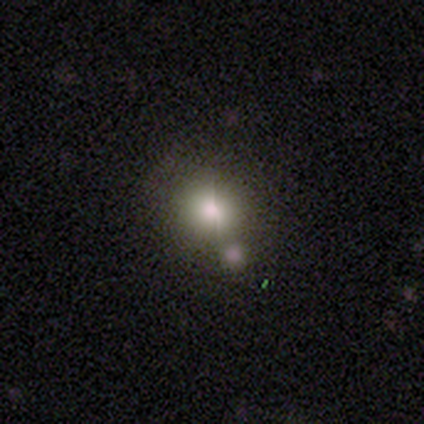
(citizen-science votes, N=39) Q: Smooth or featured?
A: smooth (59%); runner-up: featured or disk (23%)
Q: How rounded?
A: round (91%); runner-up: in between (9%)
Q: Merging?
A: none (66%); runner-up: minor disturbance (19%)